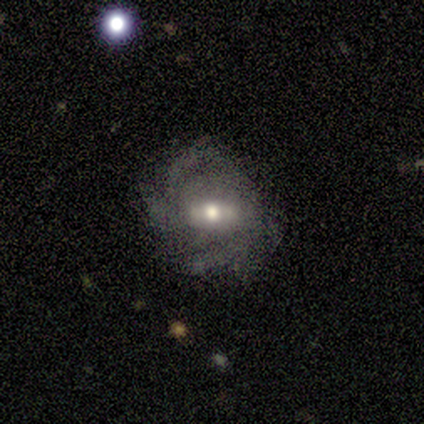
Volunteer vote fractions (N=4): smooth-or-featured: featured or disk: 100% | smooth: 0% | star or artifact: 0%
  disk-edge-on: no: 100% | yes: 0%
    bar: no: 50% | strong: 25% | weak: 25%
    has-spiral-arms: yes: 100% | no: 0%
      spiral-winding: loose: 50% | tight: 25% | medium: 25%
      spiral-arm-count: 2: 50% (tied) | 3: 50% (tied) | 1: 0% | 4: 0% | more than 4: 0% | can't tell: 0%
    bulge-size: moderate: 100% | dominant: 0% | large: 0% | small: 0% | none: 0%
  merging: none: 100% | minor disturbance: 0% | major disturbance: 0% | merger: 0%